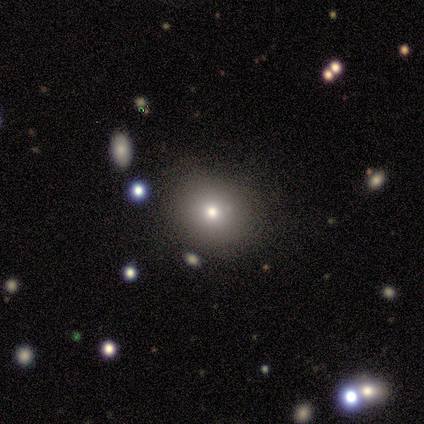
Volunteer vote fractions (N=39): This is possibly a smooth galaxy (59%). How rounded: clearly round (87%). Merging: clearly none (88%).